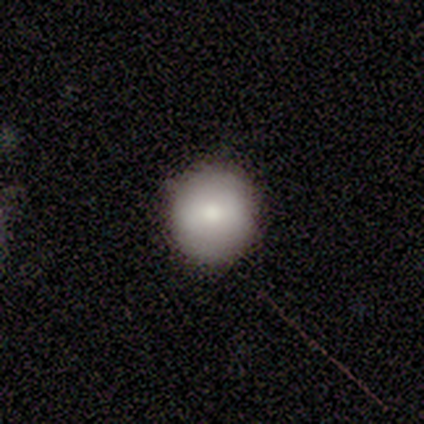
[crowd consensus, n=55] Morphology: type=smooth (76%); roundness=round (95%); merging=none (76%).